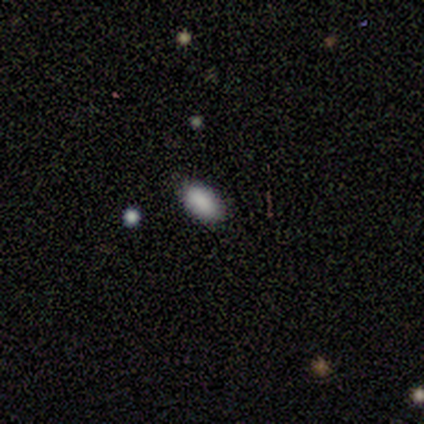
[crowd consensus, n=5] smooth_or_featured: smooth (p=0.80) [alt: star or artifact p=0.20]
how_rounded: in between (p=1.00)
merging: none (p=1.00)